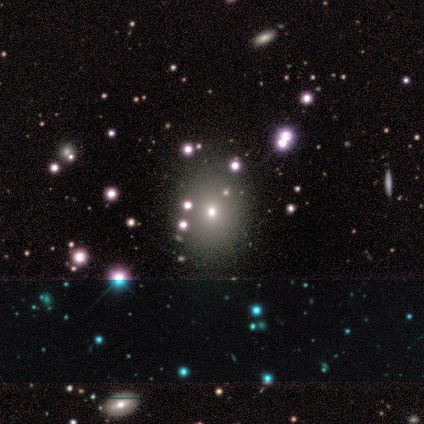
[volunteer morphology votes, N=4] Smooth or featured? 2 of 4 (50%, tied with star or artifact) said smooth. How rounded? 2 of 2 (100%) said round. Merging? 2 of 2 (100%) said none.